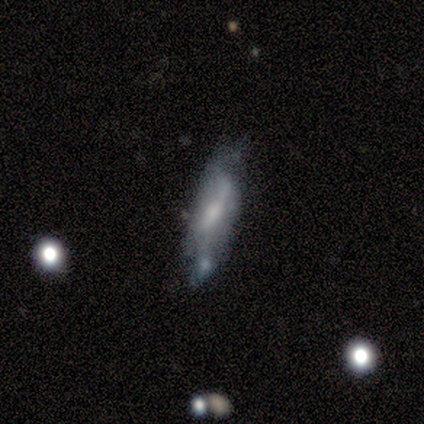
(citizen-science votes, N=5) Smooth or featured? featured or disk (80%)
Edge-on disk? yes (50%, tied with no)
Edge-on bulge? none (100%)
Merging? none (40%, tied with major disturbance)